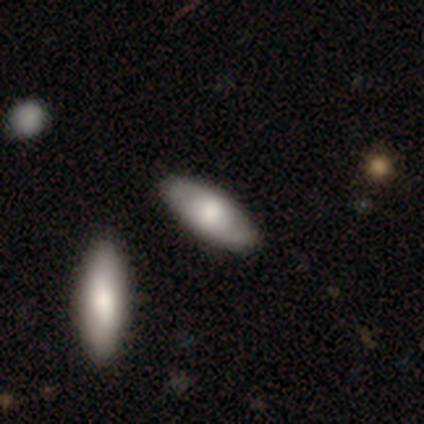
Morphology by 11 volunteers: smooth_or_featured: smooth (p=0.64) [alt: featured or disk p=0.36]
how_rounded: in between (p=0.71) [alt: cigar-shaped p=0.29]
merging: none (p=0.91) [alt: minor disturbance p=0.09]